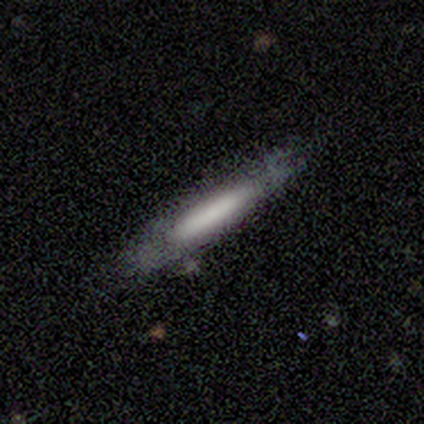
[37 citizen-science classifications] smooth-or-featured: featured or disk: 54% | smooth: 43% | star or artifact: 3%
  disk-edge-on: yes: 70% | no: 30%
    edge-on-bulge: none: 50% | boxy: 29% | rounded: 21%
  merging: none: 81% | minor disturbance: 19% | major disturbance: 0% | merger: 0%